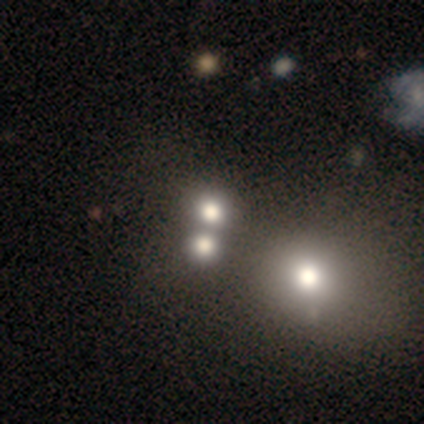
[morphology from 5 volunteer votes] Volunteers were most divided on "how rounded": round: 75%, in between: 25%, cigar-shaped: 0%. More confident: smooth or featured — smooth (80%); merging — merger (75%).